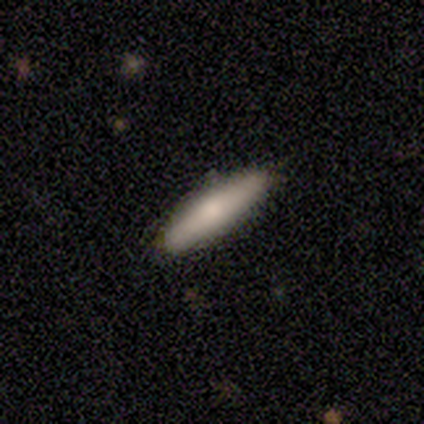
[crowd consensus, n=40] Smooth or featured?
  - smooth: 75% *
  - featured or disk: 25%
  - star or artifact: 0%
How rounded?
  - cigar-shaped: 73% *
  - in between: 27%
  - round: 0%
Merging?
  - none: 90% *
  - minor disturbance: 10%
  - major disturbance: 0%
  - merger: 0%